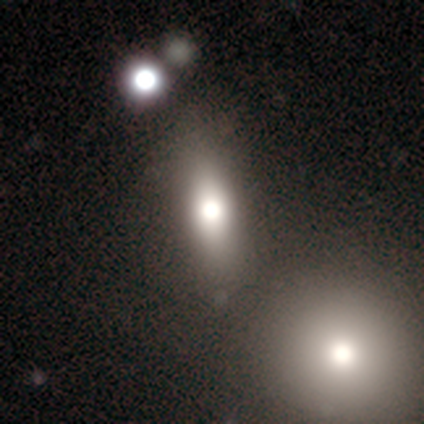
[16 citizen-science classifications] Smooth or featured? 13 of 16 (81%) said smooth. How rounded? 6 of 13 (46%) said cigar-shaped. Merging? 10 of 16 (62%) said none.